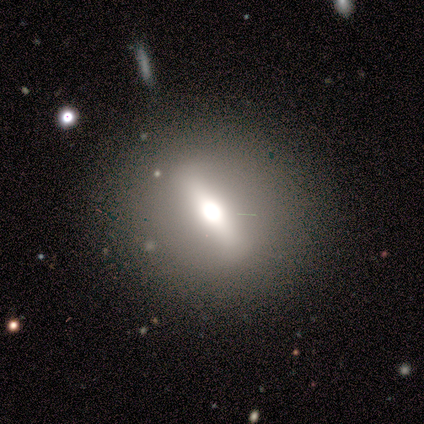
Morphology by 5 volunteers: featured or disk 80%, smooth 20%, star or artifact 0%. Down the decision tree: edge-on disk — yes (50%, tied with no); edge-on bulge — rounded (100%); merging — none (100%).